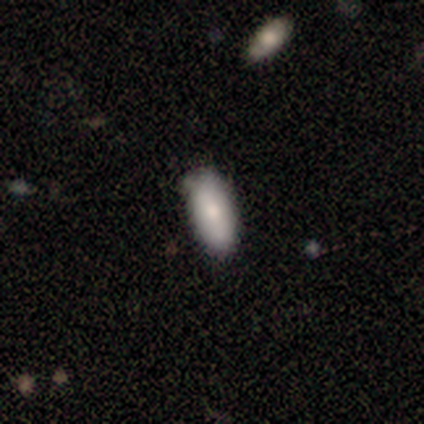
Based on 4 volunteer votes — Smooth or featured: smooth — 50% (featured or disk — 25%)
How rounded: in between — 100%
Merging: none — 67% (minor disturbance — 33%)